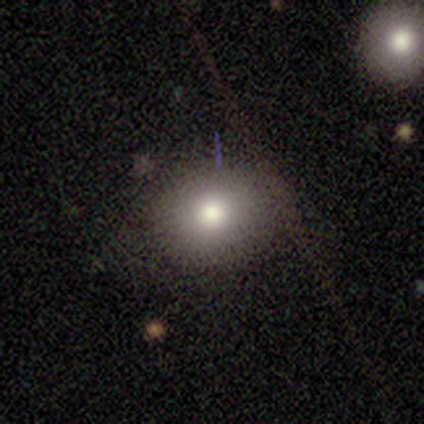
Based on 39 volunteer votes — A smooth galaxy with no disk features (79%) that is round (61%).

Vote fractions:
- Smooth or featured? smooth: 79% / featured or disk: 18% / star or artifact: 3%
- How rounded? round: 61% / in between: 32% / cigar-shaped: 6%
- Merging? none: 87% / minor disturbance: 5% / major disturbance: 5% / merger: 3%